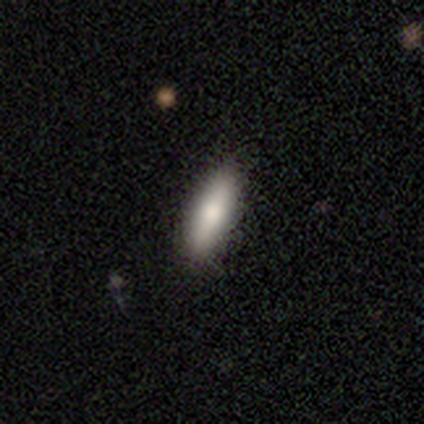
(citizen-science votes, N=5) Q: Smooth or featured?
A: smooth (60%); runner-up: featured or disk (40%)
Q: How rounded?
A: cigar-shaped (67%); runner-up: in between (33%)
Q: Merging?
A: none (100%)